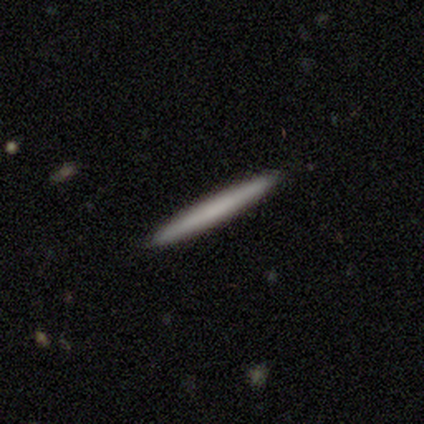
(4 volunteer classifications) Q: Smooth or featured?
A: smooth (75%); runner-up: featured or disk (25%)
Q: How rounded?
A: cigar-shaped (100%)
Q: Merging?
A: none (75%); runner-up: major disturbance (25%)